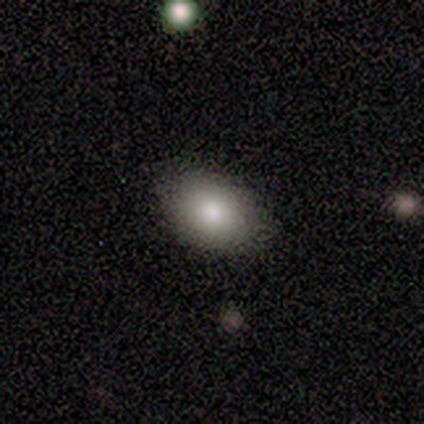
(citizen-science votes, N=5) Smooth or featured? 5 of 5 (100%) said smooth. How rounded? 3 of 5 (60%) said in between. Merging? 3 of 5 (60%) said none.